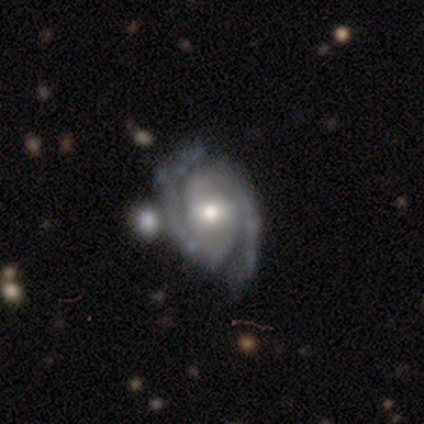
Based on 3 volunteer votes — Overall: featured or disk (100%). Edge-on disk: no (100%). Bar: no (67%; weak 33%). Spiral arms: yes (100%). Spiral arm count: 2 (100%). Spiral winding: tight (67%; medium 33%). Bulge size: large (67%; moderate 33%). Merging: none (67%; minor disturbance 33%).